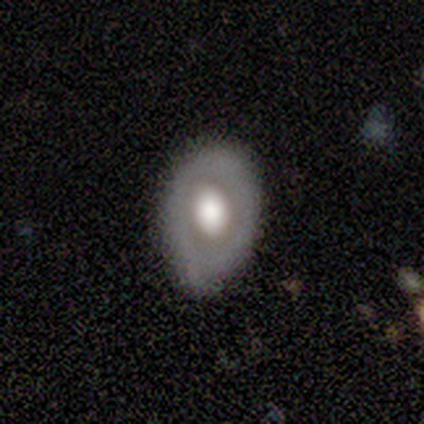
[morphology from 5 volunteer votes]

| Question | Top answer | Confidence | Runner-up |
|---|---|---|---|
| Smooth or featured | featured or disk | 80% | smooth (20%) |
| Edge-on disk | no | 100% | — |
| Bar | no | 100% | — |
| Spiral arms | no | 100% | — |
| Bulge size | large | 100% | — |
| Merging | minor disturbance | 100% | — |